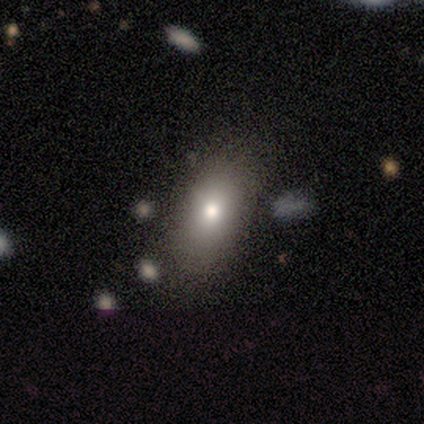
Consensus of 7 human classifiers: smooth_or_featured: smooth (p=1.00)
how_rounded: in between (p=0.71) [alt: round p=0.29]
merging: none (p=0.71) [alt: minor disturbance p=0.29]